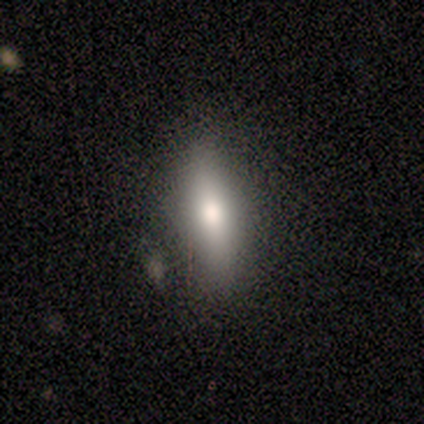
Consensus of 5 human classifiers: Volunteers were most divided on "smooth or featured": smooth: 60%, featured or disk: 40%, star or artifact: 0%. More confident: how rounded — cigar-shaped (67%); merging — minor disturbance (60%).